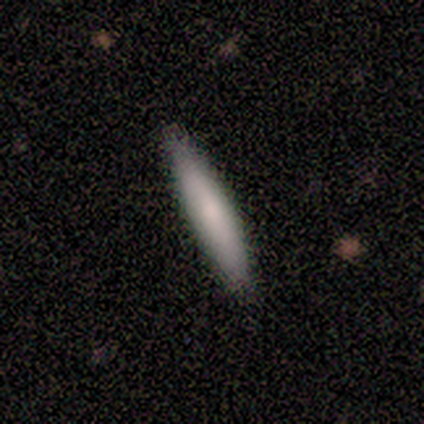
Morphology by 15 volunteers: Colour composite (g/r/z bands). It shows a smooth galaxy with no disk features (80%) that is cigar-shaped (100%). Merging: none (87%).